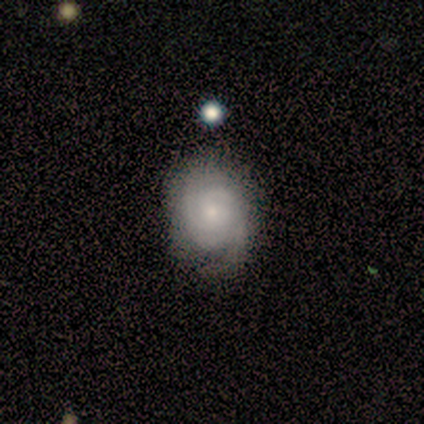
Smooth or featured: featured or disk — 58% (smooth — 33%)
Edge-on disk: no — 100%
Bar: no — 57% (weak — 29%)
Spiral arms: yes — 86% (no — 14%)
Spiral winding: tight — 83% (loose — 17%)
Spiral arm count: 2 — 33% (1 — 17%)
Bulge size: moderate — 43% (tied with small — 43%)
Merging: none — 64% (minor disturbance — 36%)